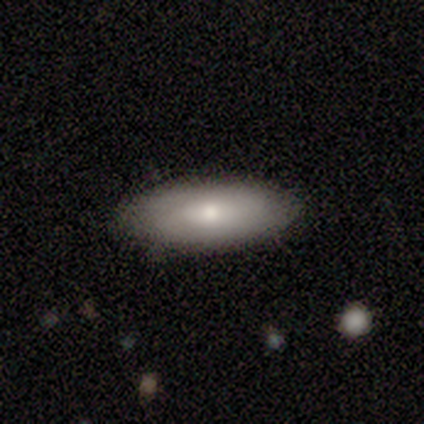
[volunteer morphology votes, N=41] smooth 78%, featured or disk 22%, star or artifact 0%. Down the decision tree: how rounded — in between (81%); merging — none (88%).